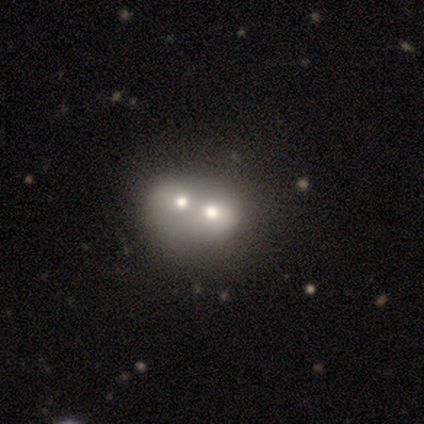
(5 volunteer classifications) Smooth or featured? featured or disk (40%, tied with star or artifact)
Edge-on disk? no (100%)
Bar? no (100%)
Spiral arms? no (100%)
Bulge size? dominant (50%, tied with small)
Merging? merger (67%)